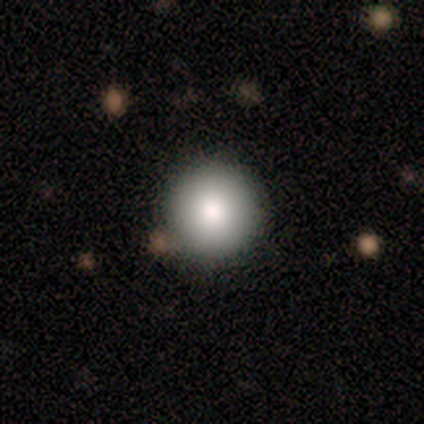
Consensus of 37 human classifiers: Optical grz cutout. It shows a smooth galaxy with no disk features (97%) that is round (97%). Merging: none (81%).